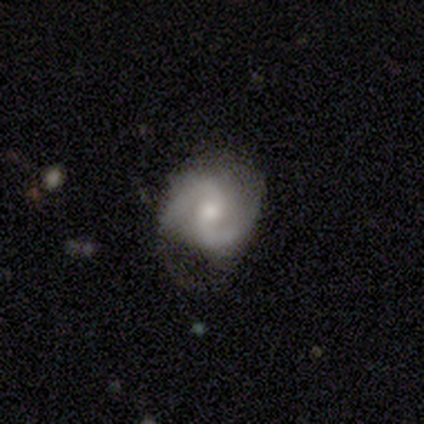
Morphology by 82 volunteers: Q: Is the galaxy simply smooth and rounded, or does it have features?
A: featured or disk — 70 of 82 (85%).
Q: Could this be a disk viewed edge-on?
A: no — 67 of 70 (96%).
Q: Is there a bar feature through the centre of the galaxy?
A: weak — 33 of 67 (49%).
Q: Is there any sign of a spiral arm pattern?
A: yes — 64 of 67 (96%).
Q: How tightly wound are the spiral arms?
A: medium — 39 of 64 (61%).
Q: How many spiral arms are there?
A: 2 — 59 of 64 (92%).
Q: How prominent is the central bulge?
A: small — 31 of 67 (46%).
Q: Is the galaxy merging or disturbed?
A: none — 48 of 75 (64%).